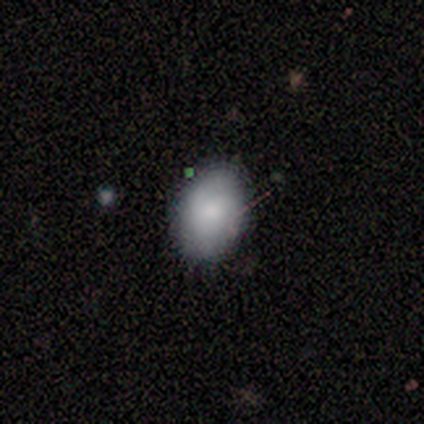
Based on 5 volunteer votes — Smooth or featured? 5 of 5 (100%) said smooth. How rounded? 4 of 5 (80%) said in between. Merging? 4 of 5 (80%) said none.